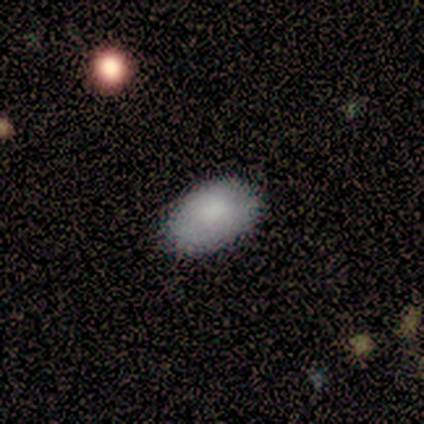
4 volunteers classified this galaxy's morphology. smooth_or_featured: smooth (p=0.50) [tied with: featured or disk p=0.50]
how_rounded: in between (p=1.00)
merging: none (p=0.50) [alt: minor disturbance p=0.25]